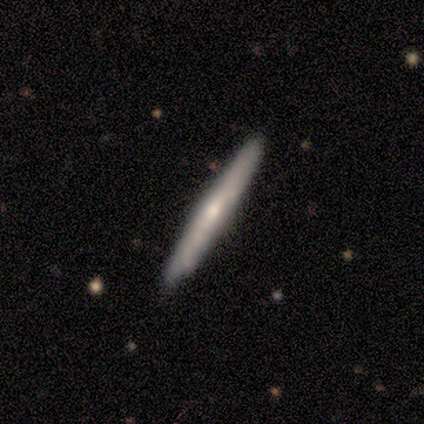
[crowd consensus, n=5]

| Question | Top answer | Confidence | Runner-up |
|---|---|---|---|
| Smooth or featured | featured or disk | 60% | smooth (40%) |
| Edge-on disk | yes | 100% | — |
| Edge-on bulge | none | 100% | — |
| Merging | none | 80% | minor disturbance (20%) |